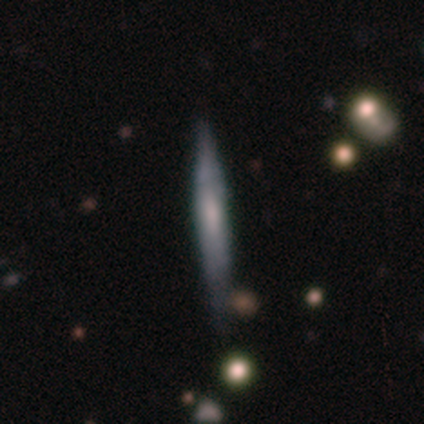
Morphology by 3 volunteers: Volunteers were most divided on "smooth or featured": smooth: 67%, featured or disk: 33%, star or artifact: 0%. More confident: how rounded — cigar-shaped (100%); merging — none (100%).